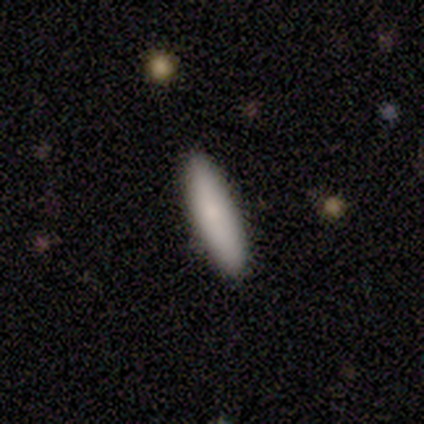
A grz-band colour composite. It shows a smooth galaxy with no disk features (80%) that is cigar-shaped (100%). Merging: none (100%).